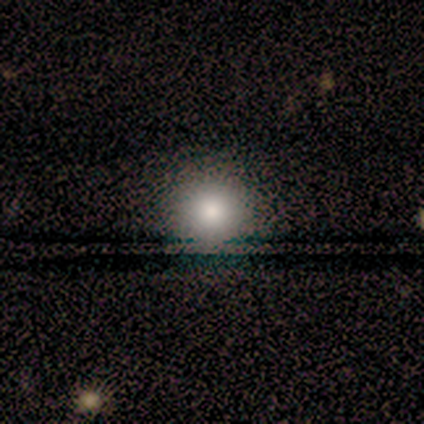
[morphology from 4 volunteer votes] Overall: smooth (100%). How rounded: round (100%). Merging: none (100%).